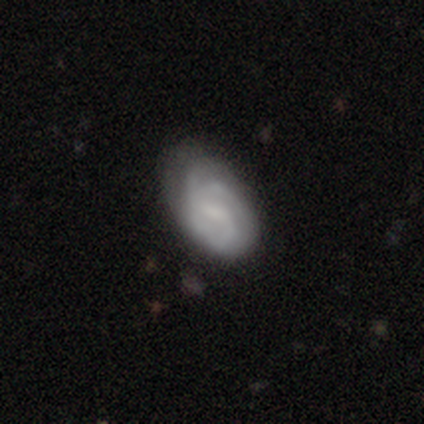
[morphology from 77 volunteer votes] smooth_or_featured: featured or disk (p=0.66) [alt: smooth p=0.29]
disk_edge_on: no (p=0.98) [alt: yes p=0.02]
bar: weak (p=0.60) [alt: no p=0.26]
has_spiral_arms: yes (p=0.90) [alt: no p=0.10]
spiral_winding: tight (p=0.42) [tied with: medium p=0.42]
spiral_arm_count: 2 (p=0.44) [alt: can't tell p=0.36]
bulge_size: none (p=0.54) [alt: small p=0.34]
merging: none (p=0.30) [alt: minor disturbance p=0.15]